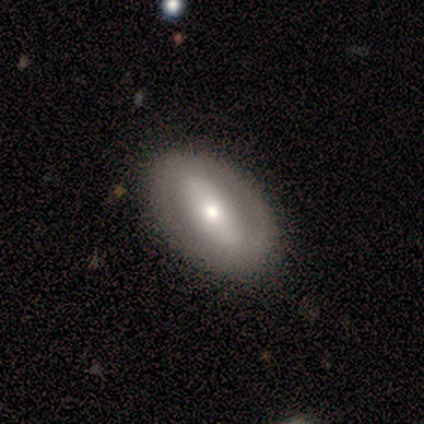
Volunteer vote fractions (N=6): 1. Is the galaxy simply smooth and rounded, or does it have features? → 83% smooth, 17% featured or disk, 0% star or artifact.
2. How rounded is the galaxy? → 80% in between, 20% cigar-shaped, 0% round.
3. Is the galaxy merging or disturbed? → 83% none, 17% minor disturbance, 0% major disturbance, 0% merger.